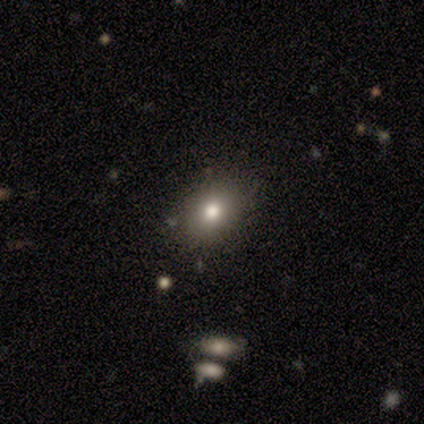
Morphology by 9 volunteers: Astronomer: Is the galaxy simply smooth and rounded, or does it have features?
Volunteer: smooth — 89%.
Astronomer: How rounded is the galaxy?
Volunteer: round — 62%.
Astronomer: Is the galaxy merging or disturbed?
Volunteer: none — 89%.